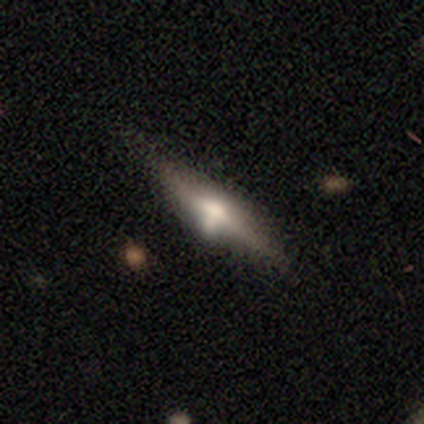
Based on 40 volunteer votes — Smooth or featured: featured or disk — 65% (smooth — 35%)
Edge-on disk: yes — 100%
Edge-on bulge: rounded — 81% (boxy — 12%)
Merging: none — 55% (minor disturbance — 30%)